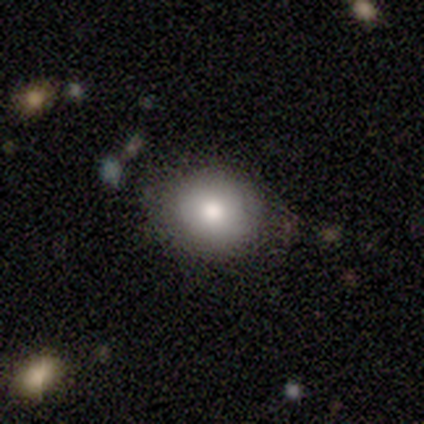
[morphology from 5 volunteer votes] This is clearly a smooth galaxy (100%). How rounded: likely round (60%). Merging: clearly none (80%).